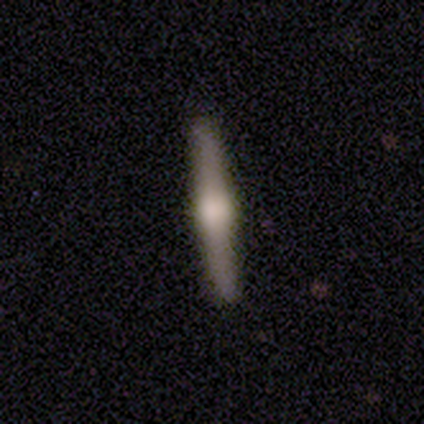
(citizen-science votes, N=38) Q: Smooth or featured?
A: featured or disk (71%); runner-up: smooth (24%)
Q: Edge-on disk?
A: yes (96%); runner-up: no (4%)
Q: Edge-on bulge?
A: rounded (92%); runner-up: boxy (8%)
Q: Merging?
A: none (92%); runner-up: major disturbance (6%)